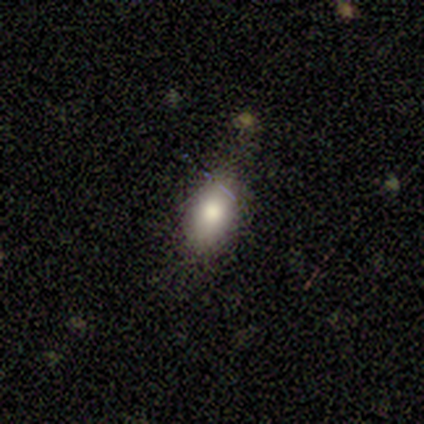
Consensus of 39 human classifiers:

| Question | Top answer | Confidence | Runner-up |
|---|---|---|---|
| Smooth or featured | smooth | 82% | featured or disk (15%) |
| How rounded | in between | 81% | round (16%) |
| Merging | none | 82% | minor disturbance (11%) |